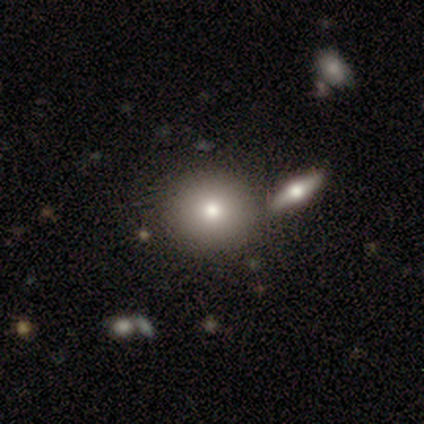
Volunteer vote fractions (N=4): Smooth or featured: featured or disk — 50% (tied with star or artifact — 50%)
Edge-on disk: no — 100%
Bar: no — 100%
Spiral arms: no — 100%
Bulge size: moderate — 100%
Merging: none — 100%